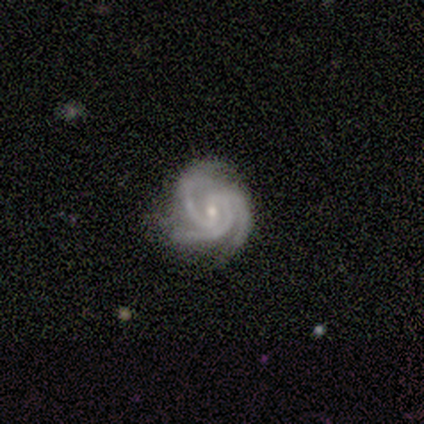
This is clearly a featured or disk galaxy (80%). It is clearly not viewed edge-on (100%). Bar: clearly weak (100%). Spiral arm pattern: likely yes (75%). Spiral arm count: likely 3 (67%). Spiral winding: likely tight (67%). Central bulge: likely moderate (75%). Merging: clearly none (80%).